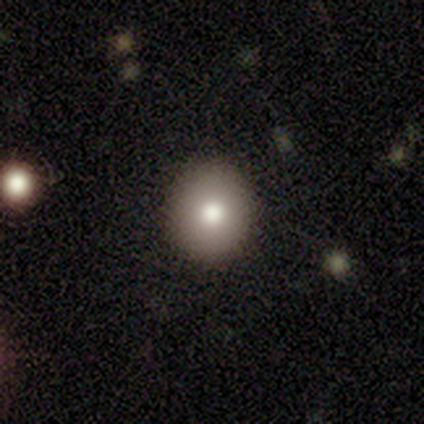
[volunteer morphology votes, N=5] A smooth galaxy with no disk features (80%) that is round (100%). Merging: none (75%).